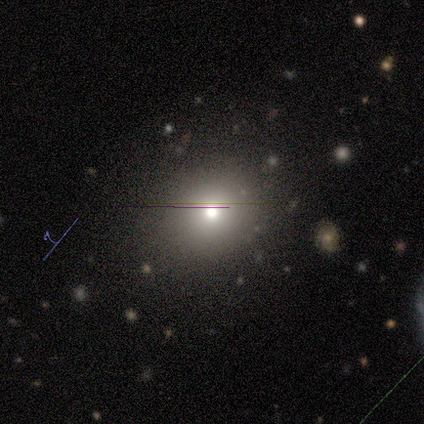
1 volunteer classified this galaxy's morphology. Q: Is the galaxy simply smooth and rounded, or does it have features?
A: smooth — 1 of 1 (100%).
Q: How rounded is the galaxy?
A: round — 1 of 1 (100%).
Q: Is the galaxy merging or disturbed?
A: minor disturbance — 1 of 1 (100%).